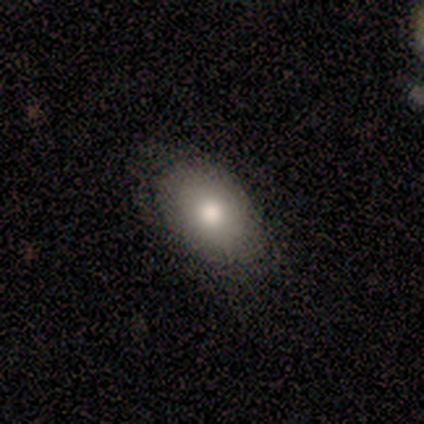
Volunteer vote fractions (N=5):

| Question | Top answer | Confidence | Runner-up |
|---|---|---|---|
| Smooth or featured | smooth | 80% | featured or disk (20%) |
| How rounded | in between | 100% | — |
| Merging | none | 40% | tied: minor disturbance (40%) |